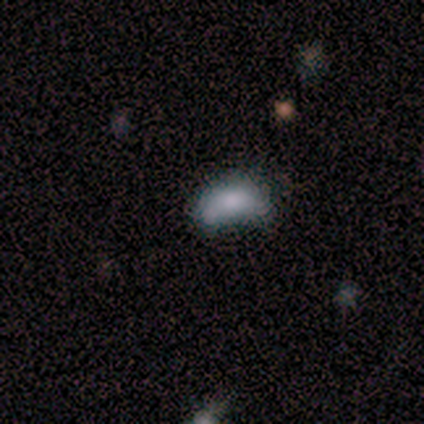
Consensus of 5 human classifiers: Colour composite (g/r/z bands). It shows a smooth galaxy with no disk features (60%) that is in between round and cigar-shaped (67%). Merging: minor disturbance (40%, tied with major disturbance).